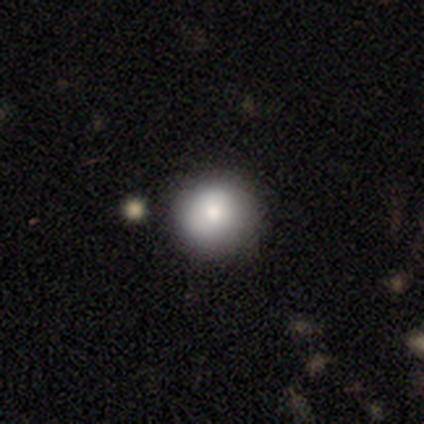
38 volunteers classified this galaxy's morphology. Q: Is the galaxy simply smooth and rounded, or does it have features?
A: smooth — 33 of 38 (87%).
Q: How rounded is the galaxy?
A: round — 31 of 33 (94%).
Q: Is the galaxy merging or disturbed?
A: none — 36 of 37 (97%).